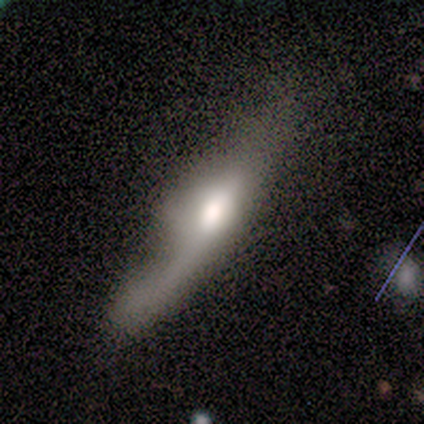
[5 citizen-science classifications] smooth 60%, featured or disk 20%, star or artifact 20%. Down the decision tree: how rounded — cigar-shaped (100%); merging — major disturbance (50%).